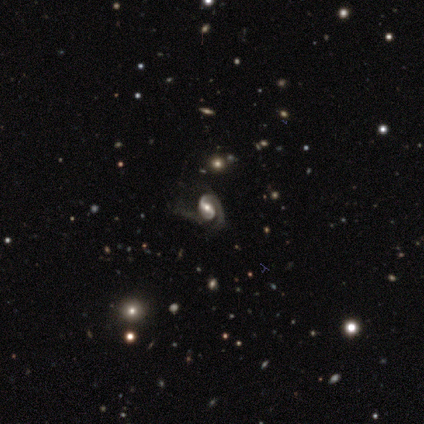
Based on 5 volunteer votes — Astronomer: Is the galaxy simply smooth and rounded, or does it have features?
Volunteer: featured or disk — 100%.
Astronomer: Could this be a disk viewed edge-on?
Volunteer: no — 100%.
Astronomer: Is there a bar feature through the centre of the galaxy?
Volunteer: strong — 40%, tied with weak at 40%.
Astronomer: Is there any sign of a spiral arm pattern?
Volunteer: yes — 80%.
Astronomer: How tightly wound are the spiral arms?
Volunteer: loose — 50%.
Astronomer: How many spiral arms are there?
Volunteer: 1 — 50%, tied with 2 at 50%.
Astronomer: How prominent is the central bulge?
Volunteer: moderate — 60% (runner-up: large, 40%).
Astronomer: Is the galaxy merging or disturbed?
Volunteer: none — 40%, tied with minor disturbance at 40%.